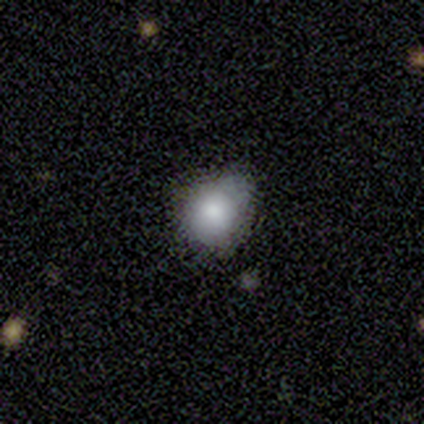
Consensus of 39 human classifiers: Morphology: type=smooth (82%); roundness=round (69%); merging=minor disturbance (47%).